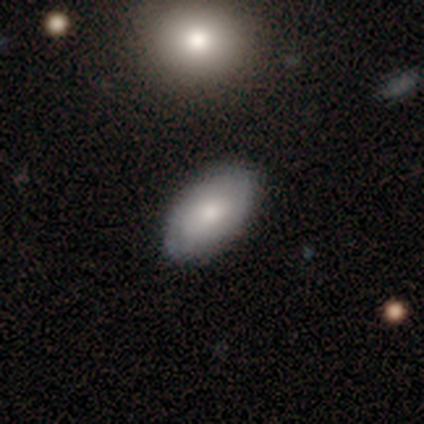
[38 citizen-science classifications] Volunteers were most divided on "smooth or featured" (2-way tie): smooth: 50%, featured or disk: 50%, star or artifact: 0%. More confident: how rounded — in between (95%); merging — none (55%).